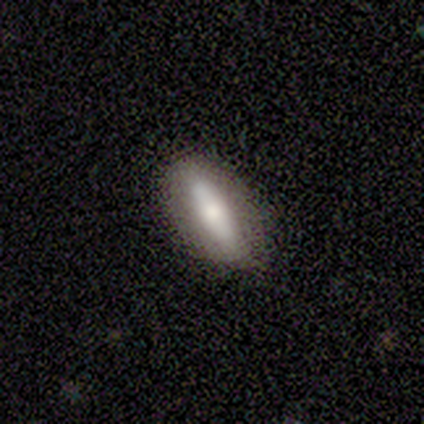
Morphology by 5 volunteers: smooth 80%, featured or disk 20%, star or artifact 0%. Down the decision tree: how rounded — in between (75%); merging — none (100%).